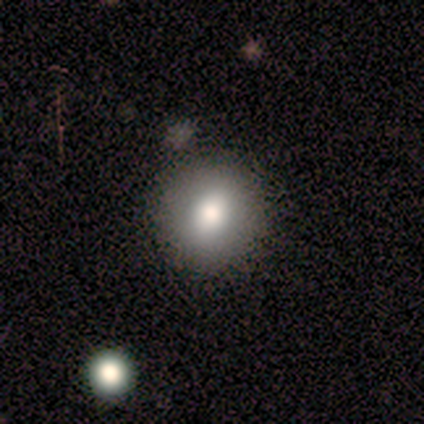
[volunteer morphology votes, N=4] Smooth or featured? 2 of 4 (50%, tied with featured or disk) said smooth. How rounded? 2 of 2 (100%) said round. Merging? 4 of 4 (100%) said none.